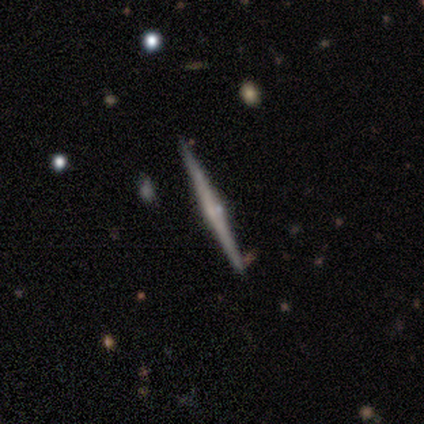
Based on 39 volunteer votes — Q: Smooth or featured?
A: featured or disk (74%); runner-up: smooth (23%)
Q: Edge-on disk?
A: yes (100%)
Q: Edge-on bulge?
A: rounded (66%); runner-up: none (31%)
Q: Merging?
A: none (87%); runner-up: minor disturbance (11%)